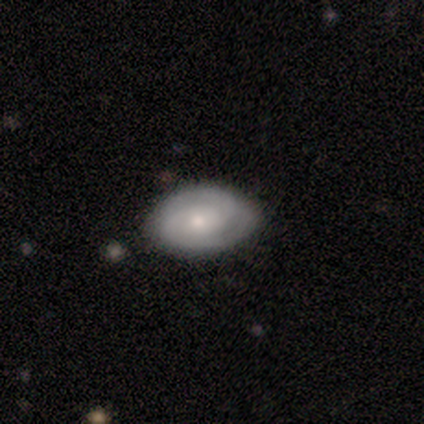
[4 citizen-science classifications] Smooth or featured: featured or disk — 75% (smooth — 25%)
Edge-on disk: no — 100%
Bar: strong — 33% (tied with weak — 33%; no — 33%)
Spiral arms: yes — 100%
Spiral winding: tight — 67% (medium — 33%)
Spiral arm count: 2 — 67% (3 — 33%)
Bulge size: moderate — 67% (small — 33%)
Merging: none — 75% (merger — 25%)